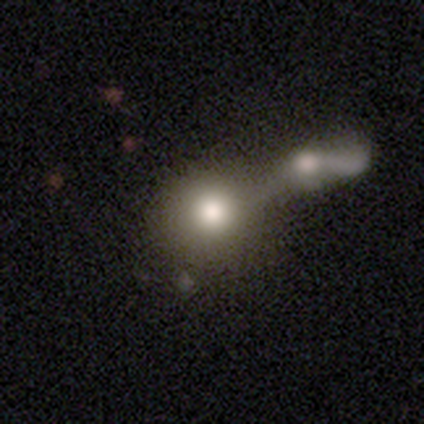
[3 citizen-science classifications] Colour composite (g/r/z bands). It shows a smooth galaxy with no disk features (67%) that is round (100%). Merging: none (67%).